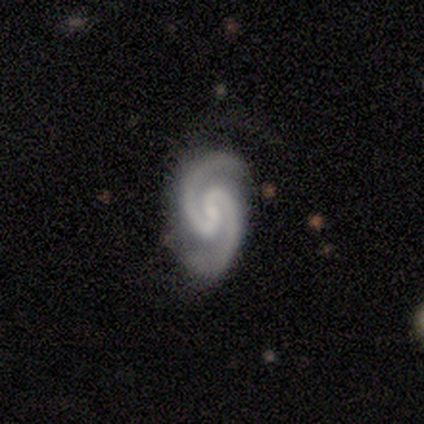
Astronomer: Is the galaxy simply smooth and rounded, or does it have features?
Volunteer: featured or disk — 100%.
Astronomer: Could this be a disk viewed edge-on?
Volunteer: no — 100%.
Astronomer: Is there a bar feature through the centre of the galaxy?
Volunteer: no — 60% (runner-up: weak, 40%).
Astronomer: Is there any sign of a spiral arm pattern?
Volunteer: yes — 100%.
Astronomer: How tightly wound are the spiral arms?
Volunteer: medium — 100%.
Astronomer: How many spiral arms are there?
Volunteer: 2 — 100%.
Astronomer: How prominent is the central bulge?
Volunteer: small — 80%.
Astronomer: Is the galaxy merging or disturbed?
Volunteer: none — 80%.